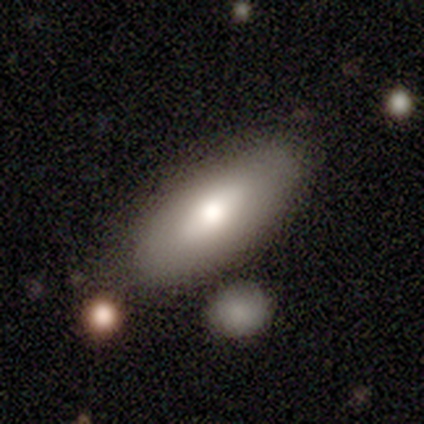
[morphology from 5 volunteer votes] Smooth or featured? smooth (80%)
How rounded? in between (50%)
Merging? none (80%)